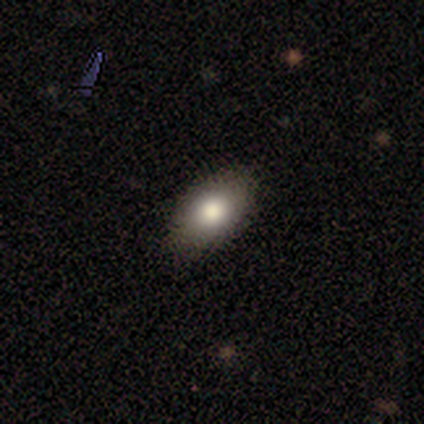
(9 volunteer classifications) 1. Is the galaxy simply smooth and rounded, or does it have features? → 78% smooth, 22% star or artifact, 0% featured or disk.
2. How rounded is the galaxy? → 86% in between, 14% round, 0% cigar-shaped.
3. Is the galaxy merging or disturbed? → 86% none, 14% minor disturbance, 0% major disturbance, 0% merger.